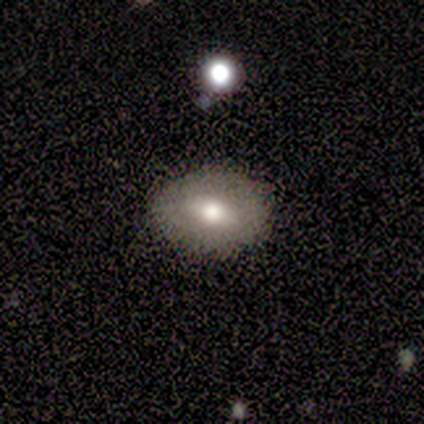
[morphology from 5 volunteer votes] type=smooth (80%); roundness=in between (100%); merging=minor disturbance (75%).